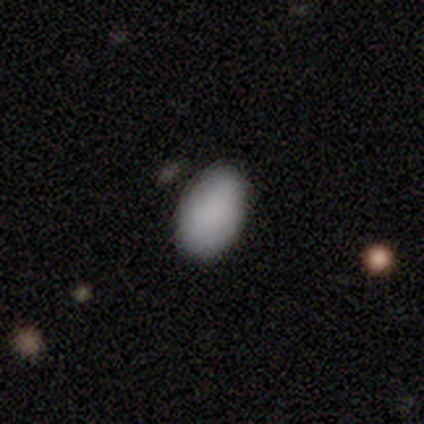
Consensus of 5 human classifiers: This appears to be a smooth galaxy with no disk features (100%) that is in between round and cigar-shaped (100%). Merging: none (100%).